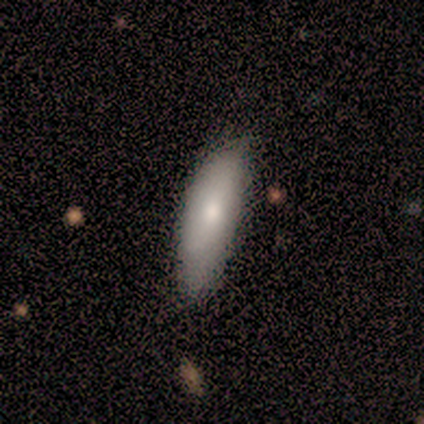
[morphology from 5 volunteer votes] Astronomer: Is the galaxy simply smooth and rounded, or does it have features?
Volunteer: smooth — 80%.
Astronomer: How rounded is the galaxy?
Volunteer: in between — 75%.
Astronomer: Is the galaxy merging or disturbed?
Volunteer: minor disturbance — 80%.